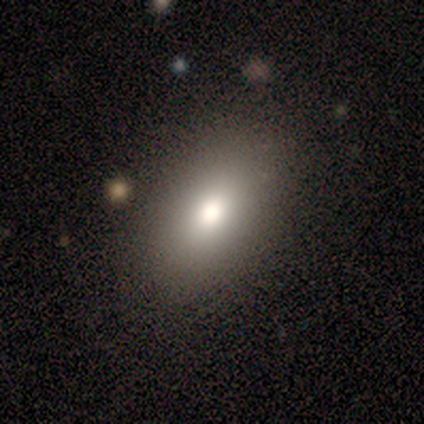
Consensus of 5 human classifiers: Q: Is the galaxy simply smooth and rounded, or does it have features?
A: smooth — 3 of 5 (60%).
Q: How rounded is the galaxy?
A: in between — 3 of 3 (100%).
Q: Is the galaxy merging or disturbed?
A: none — 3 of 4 (75%).